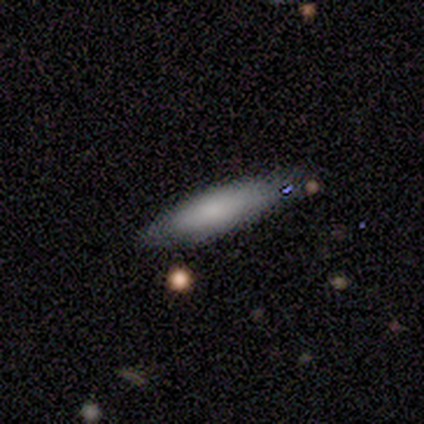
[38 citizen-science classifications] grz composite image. It shows a smooth galaxy with no disk features (84%) that is cigar-shaped (75%). Merging: none (61%).